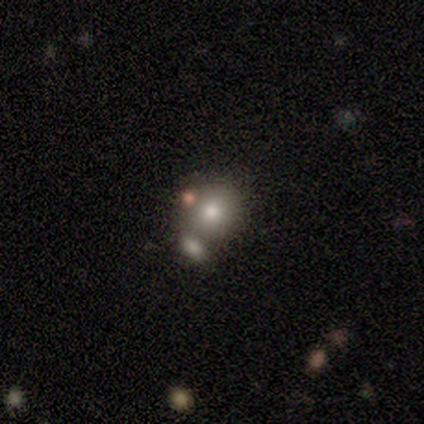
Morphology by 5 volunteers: This appears to be a smooth galaxy with no disk features (80%) that is round (50%, tied with in between). Merging: merger (75%).